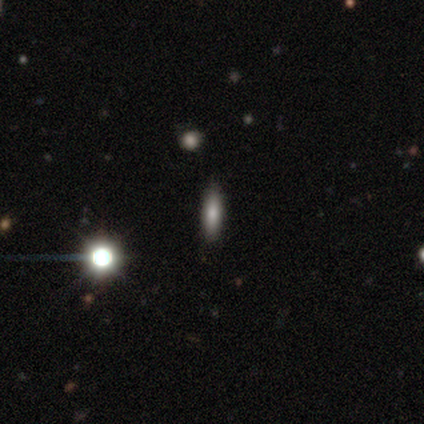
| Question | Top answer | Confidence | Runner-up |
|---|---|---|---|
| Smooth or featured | smooth | 100% | — |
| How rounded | cigar-shaped | 60% | in between (40%) |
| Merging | none | 100% | — |